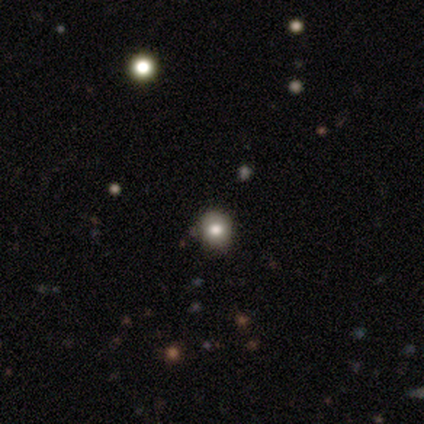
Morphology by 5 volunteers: This appears to be a smooth galaxy with no disk features (80%) that is round (100%). Merging: none (100%).